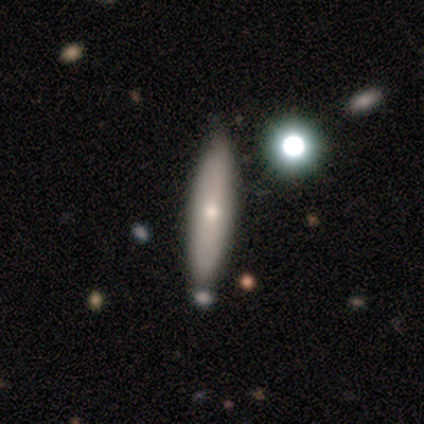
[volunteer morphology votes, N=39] smooth_or_featured: smooth (p=0.46) [alt: featured or disk p=0.44]
how_rounded: cigar-shaped (p=0.94) [alt: in between p=0.06]
merging: none (p=0.77) [alt: minor disturbance p=0.14]